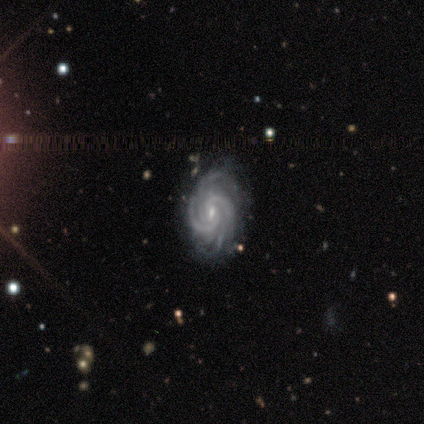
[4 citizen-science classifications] This is clearly a featured or disk galaxy (100%). It is clearly not viewed edge-on (100%). Bar: possibly weak (50%). Spiral arm pattern: clearly yes (100%). Spiral arm count: marginally 2 (25%, tied with 4, more than 4 and can't tell). Spiral winding: likely medium (75%). Central bulge: clearly small (100%). Merging: possibly none (50%).